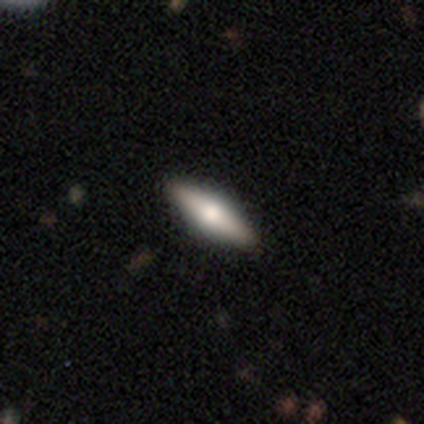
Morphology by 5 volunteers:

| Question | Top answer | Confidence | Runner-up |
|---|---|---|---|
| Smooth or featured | smooth | 60% | featured or disk (40%) |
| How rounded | cigar-shaped | 67% | in between (33%) |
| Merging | none | 100% | — |